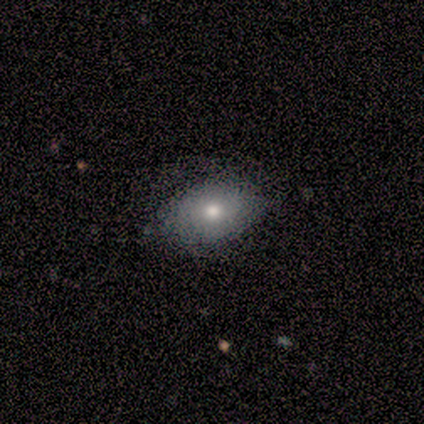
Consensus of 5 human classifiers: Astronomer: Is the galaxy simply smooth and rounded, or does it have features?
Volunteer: smooth — 80%.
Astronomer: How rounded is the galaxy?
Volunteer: in between — 75%.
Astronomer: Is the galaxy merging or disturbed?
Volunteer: none — 80%.